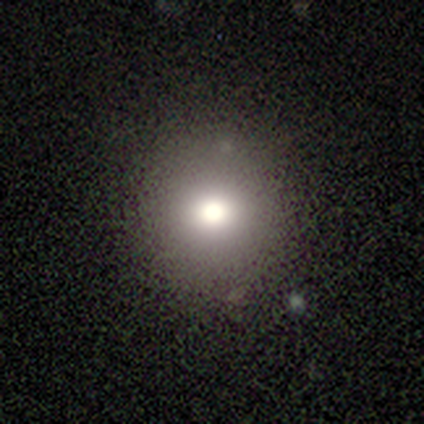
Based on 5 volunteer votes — smooth 100%, featured or disk 0%, star or artifact 0%. Down the decision tree: how rounded — round (100%); merging — none (100%).